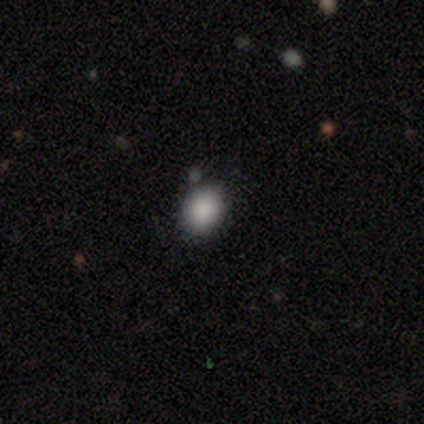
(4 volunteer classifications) Smooth or featured? 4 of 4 (100%) said smooth. How rounded? 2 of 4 (50%, tied with in between) said round. Merging? 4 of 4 (100%) said none.